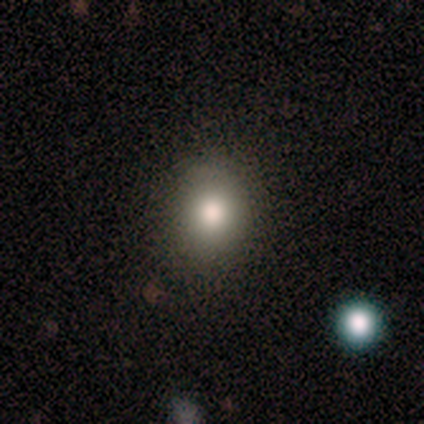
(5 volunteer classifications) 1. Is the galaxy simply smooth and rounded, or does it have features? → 80% smooth, 20% star or artifact, 0% featured or disk.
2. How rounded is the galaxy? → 75% round, 25% in between, 0% cigar-shaped.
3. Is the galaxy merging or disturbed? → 50% none (tied), 50% minor disturbance (tied), 0% major disturbance, 0% merger.